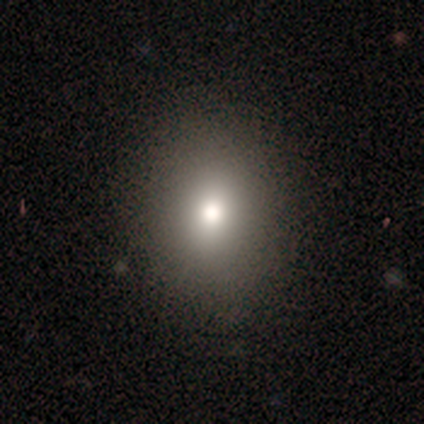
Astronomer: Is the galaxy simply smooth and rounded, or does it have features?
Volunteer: smooth — 75%.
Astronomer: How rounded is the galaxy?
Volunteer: round — 56% (runner-up: in between, 44%).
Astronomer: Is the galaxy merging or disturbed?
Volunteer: none — 81%.